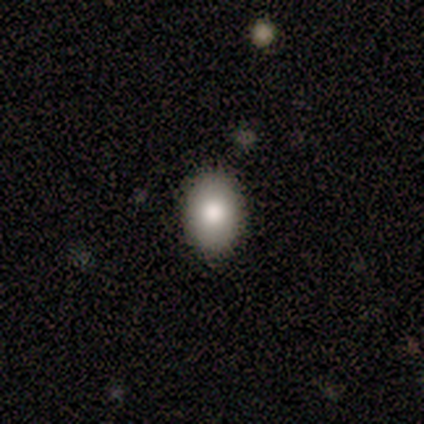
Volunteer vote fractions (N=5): Smooth or featured? 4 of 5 (80%) said smooth. How rounded? 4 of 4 (100%) said in between. Merging? 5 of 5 (100%) said none.